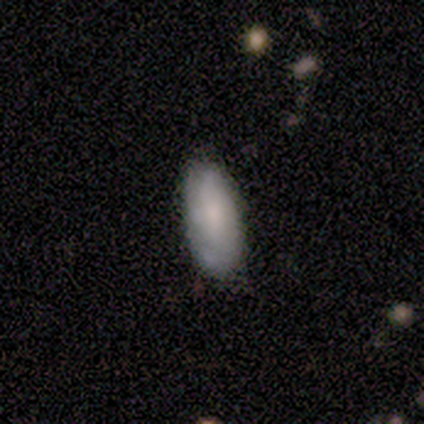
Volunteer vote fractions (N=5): A featured or disk galaxy (60%) with no bar (67%), no spiral arms (67%) and a large central bulge (33%, tied with moderate and small). Merging: minor disturbance (60%).